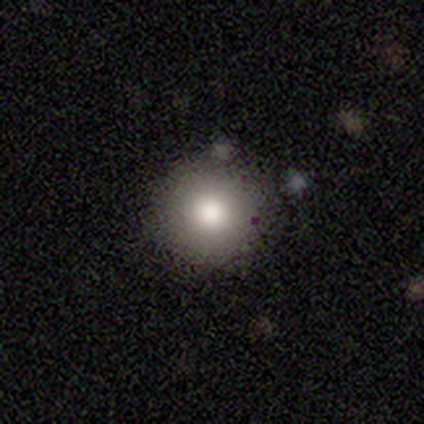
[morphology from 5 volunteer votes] smooth 100%, featured or disk 0%, star or artifact 0%. Down the decision tree: how rounded — round (100%); merging — none (80%).